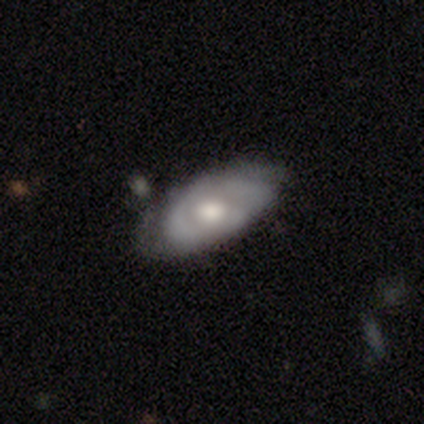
Smooth or featured?
  - featured or disk: 62% *
  - smooth: 36%
  - star or artifact: 3%
Edge-on disk?
  - no: 88% *
  - yes: 12%
Bar?
  - no: 71% *
  - weak: 29%
  - strong: 0%
Spiral arms?
  - no: 52% *
  - yes: 48%
Bulge size?
  - moderate: 67% *
  - large: 14%
  - small: 14%
  - dominant: 5%
  - none: 0%
Merging?
  - none: 66% *
  - minor disturbance: 18%
  - major disturbance: 16%
  - merger: 0%